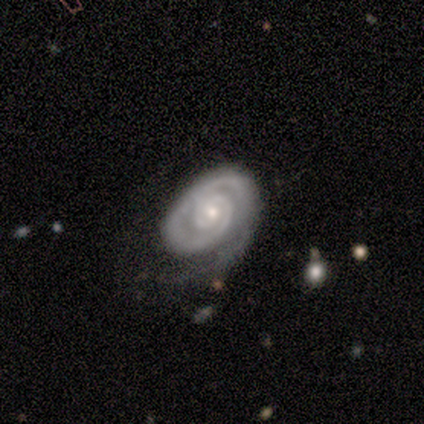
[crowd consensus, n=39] Smooth or featured? featured or disk (87%)
Edge-on disk? no (100%)
Bar? no (74%)
Spiral arms? yes (91%)
Spiral winding? tight (90%)
Spiral arm count? 1 (61%)
Bulge size? small (59%)
Merging? none (67%)